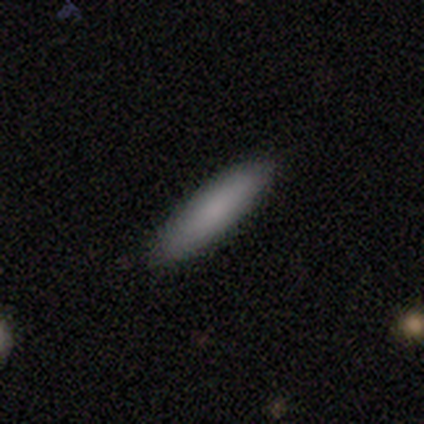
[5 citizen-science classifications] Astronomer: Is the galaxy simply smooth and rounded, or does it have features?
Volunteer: smooth — 100%.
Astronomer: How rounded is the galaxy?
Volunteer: cigar-shaped — 100%.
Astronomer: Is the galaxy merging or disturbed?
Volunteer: none — 100%.